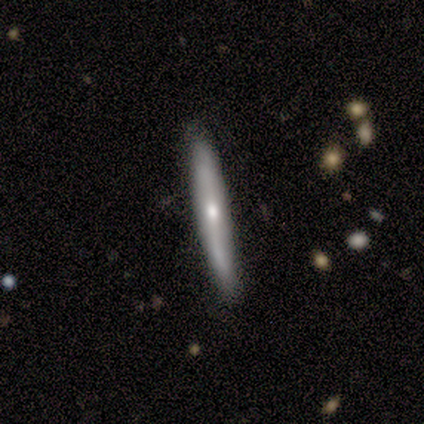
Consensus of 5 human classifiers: Smooth or featured? smooth (40%, tied with featured or disk)
How rounded? cigar-shaped (100%)
Merging? none (100%)